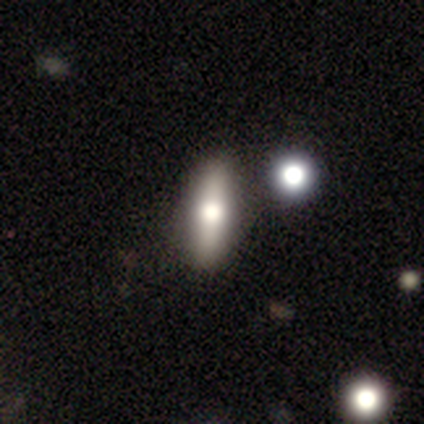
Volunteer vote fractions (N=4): A smooth galaxy with no disk features (50%) that is round (50%, tied with cigar-shaped).

Vote fractions:
- Smooth or featured? smooth: 50% / featured or disk: 25% / star or artifact: 25%
- How rounded? round: 50% (tied) / cigar-shaped: 50% (tied) / in between: 0%
- Merging? none: 67% / minor disturbance: 33% / major disturbance: 0% / merger: 0%